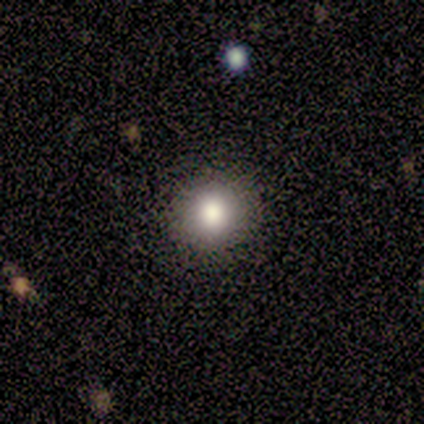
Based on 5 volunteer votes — A smooth galaxy with no disk features (60%) that is round (100%). Merging: none (60%).